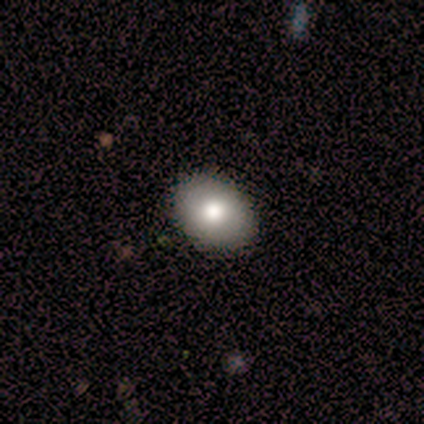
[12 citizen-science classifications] smooth_or_featured: smooth (p=0.67) [alt: featured or disk p=0.25]
how_rounded: in between (p=0.75) [alt: round p=0.25]
merging: none (p=0.91) [alt: minor disturbance p=0.09]